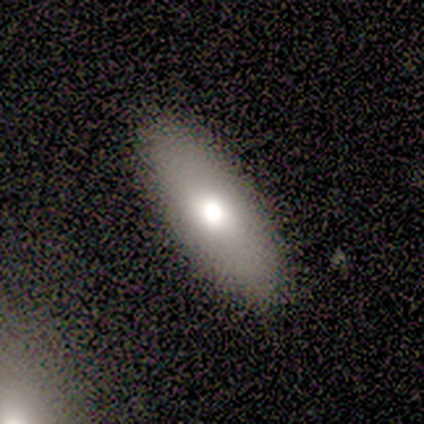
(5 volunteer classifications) Volunteers were most divided on "smooth or featured": smooth: 60%, featured or disk: 40%, star or artifact: 0%. More confident: merging — none (100%); how rounded — cigar-shaped (67%).